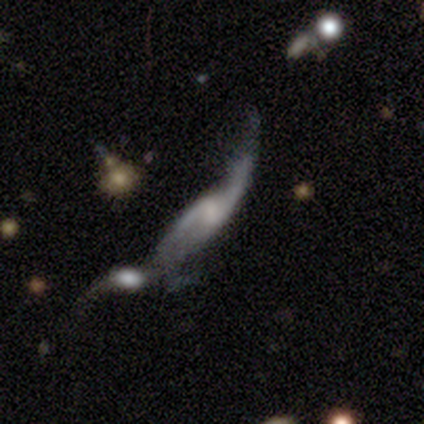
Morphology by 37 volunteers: This appears to be a featured or disk galaxy (81%) with no bar (52%), 2 (83%) loose (83%) spiral arms (78%) and no central bulge (39%). Merging: merger (56%).